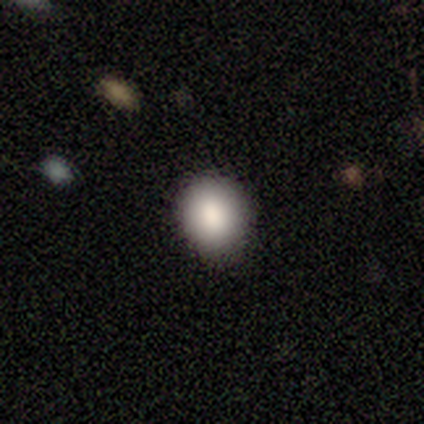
This appears to be a smooth galaxy with no disk features (90%) that is round (72%). Merging: none (85%).